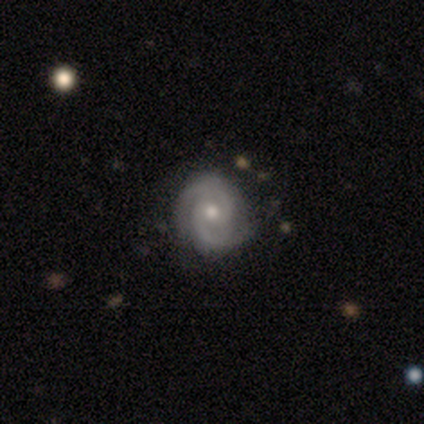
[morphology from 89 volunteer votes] type=featured or disk (91%); edge-on=no (96%); bar=no (68%); spiral arms=yes (96%); winding=tight (59%); arm count=2 (89%); bulge=moderate (59%); merging=none (89%).